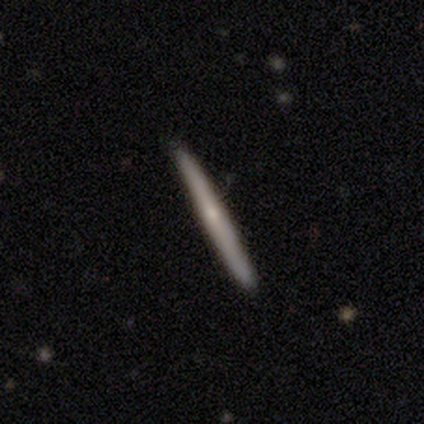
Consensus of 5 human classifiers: Q: Smooth or featured?
A: smooth (60%); runner-up: featured or disk (40%)
Q: How rounded?
A: cigar-shaped (100%)
Q: Merging?
A: none (100%)